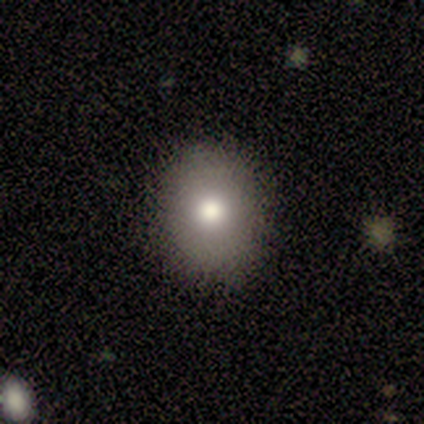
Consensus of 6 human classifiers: smooth 100%, featured or disk 0%, star or artifact 0%. Down the decision tree: how rounded — round (50%, tied with in between); merging — none (83%).